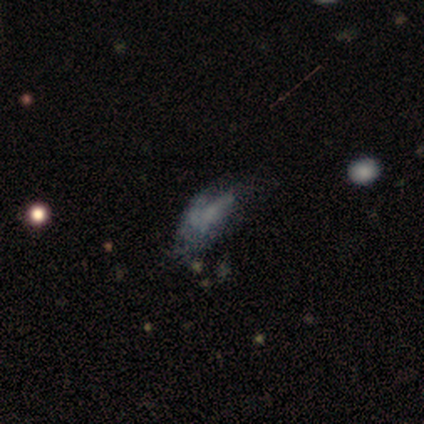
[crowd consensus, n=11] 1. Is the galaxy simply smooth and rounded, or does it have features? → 45% star or artifact, 27% smooth, 27% featured or disk.